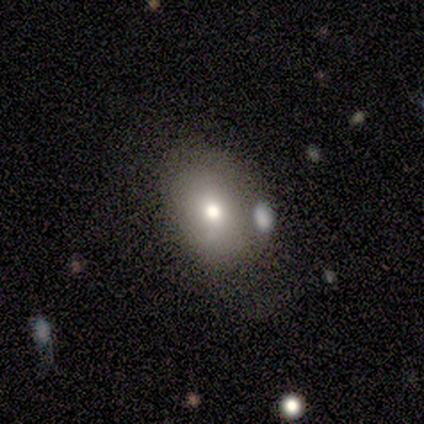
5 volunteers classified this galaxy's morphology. Overall: smooth (80%). How rounded: in between (75%). Merging: none (50%, tied with minor disturbance).